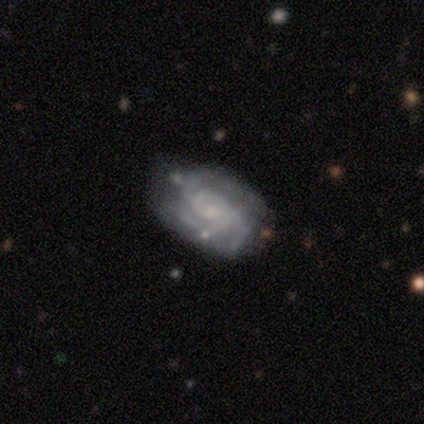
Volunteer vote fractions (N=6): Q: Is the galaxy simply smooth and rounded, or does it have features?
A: featured or disk — 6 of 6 (100%).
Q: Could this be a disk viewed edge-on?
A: no — 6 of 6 (100%).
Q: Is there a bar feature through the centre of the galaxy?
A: weak — 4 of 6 (67%).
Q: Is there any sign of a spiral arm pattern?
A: yes — 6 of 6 (100%).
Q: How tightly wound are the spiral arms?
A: tight — 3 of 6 (50%, tied with medium).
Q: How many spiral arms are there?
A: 3 — 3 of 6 (50%).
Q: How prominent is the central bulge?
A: small — 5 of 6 (83%).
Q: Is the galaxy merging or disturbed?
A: none — 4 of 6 (67%).